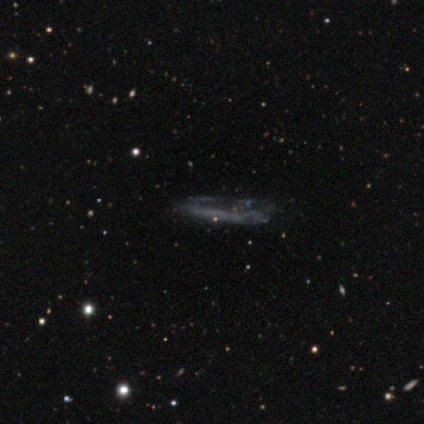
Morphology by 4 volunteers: Smooth or featured: featured or disk — 50% (smooth — 25%)
Edge-on disk: yes — 50% (tied with no — 50%)
Edge-on bulge: none — 100%
Merging: none — 67% (major disturbance — 33%)